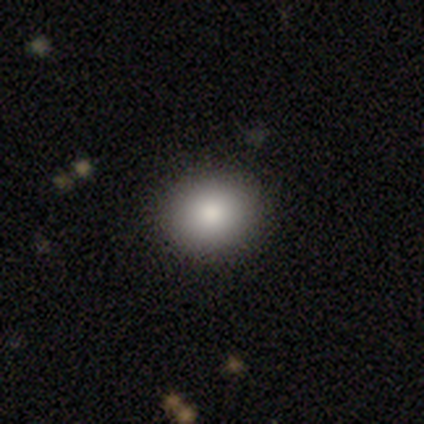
smooth_or_featured: smooth (p=0.86) [alt: star or artifact p=0.14]
how_rounded: round (p=0.67) [alt: in between p=0.33]
merging: none (p=0.83) [alt: major disturbance p=0.17]